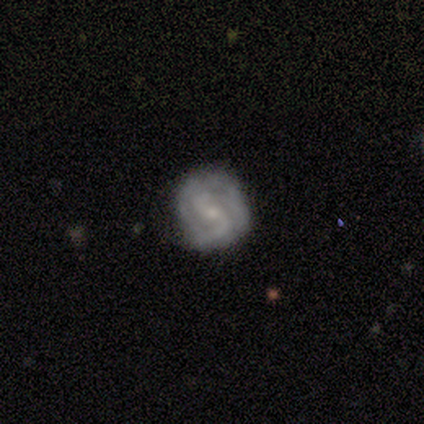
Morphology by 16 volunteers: Smooth or featured?
  - featured or disk: 69% *
  - smooth: 31%
  - star or artifact: 0%
Edge-on disk?
  - no: 100% *
  - yes: 0%
Bar?
  - weak: 45% *
  - strong: 27%
  - no: 27%
Spiral arms?
  - yes: 100% *
  - no: 0%
Spiral winding?
  - tight: 45% *
  - medium: 36%
  - loose: 18%
Spiral arm count?
  - 2: 73% *
  - can't tell: 18%
  - 3: 9%
  - 1: 0%
  - 4: 0%
  - more than 4: 0%
Bulge size?
  - small: 73% *
  - moderate: 27%
  - dominant: 0%
  - large: 0%
  - none: 0%
Merging?
  - none: 69% *
  - minor disturbance: 19%
  - major disturbance: 12%
  - merger: 0%